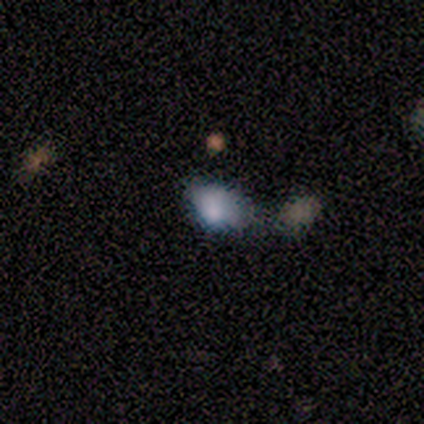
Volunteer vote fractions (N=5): Smooth or featured? smooth (80%)
How rounded? in between (100%)
Merging? merger (50%)